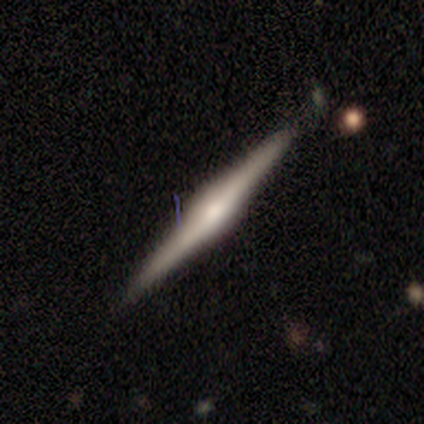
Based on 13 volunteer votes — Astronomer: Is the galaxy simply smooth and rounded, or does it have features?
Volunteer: featured or disk — 85%.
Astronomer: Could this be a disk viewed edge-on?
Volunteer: yes — 100%.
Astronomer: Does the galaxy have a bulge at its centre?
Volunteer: rounded — 82%.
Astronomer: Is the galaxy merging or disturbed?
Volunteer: none — 83%.